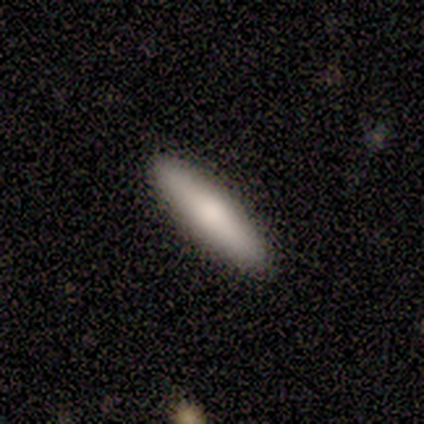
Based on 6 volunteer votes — A smooth galaxy with no disk features (67%) that is cigar-shaped (75%). Merging: none (83%).